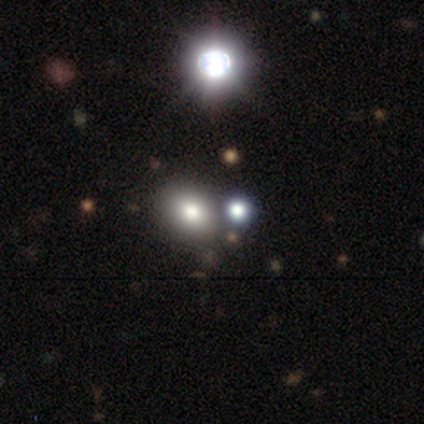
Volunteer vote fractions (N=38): Morphology: type=smooth (58%); roundness=round (50%, tied with in between); merging=none (76%).